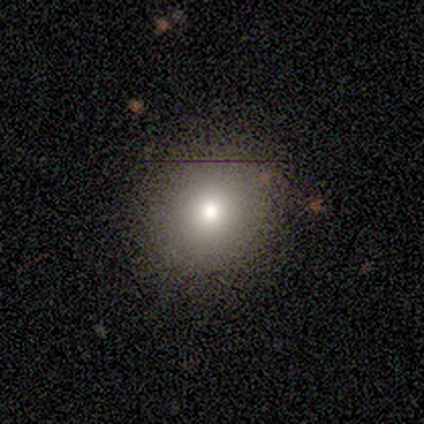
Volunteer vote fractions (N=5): smooth-or-featured: smooth: 80% | star or artifact: 20% | featured or disk: 0%
  how-rounded: round: 100% | in between: 0% | cigar-shaped: 0%
  merging: none: 100% | minor disturbance: 0% | major disturbance: 0% | merger: 0%